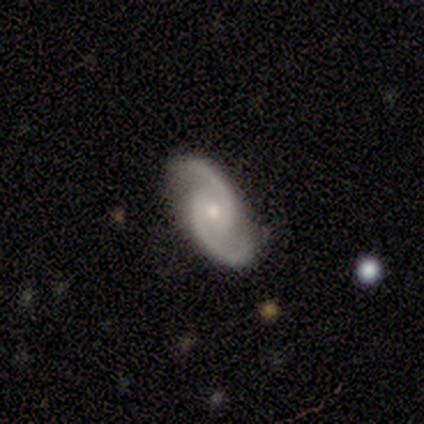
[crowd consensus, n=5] A featured or disk galaxy (100%) with no bar (75%), 2 (100%) medium (75%) spiral arms (100%) and a moderate central bulge (50%, tied with small). Merging: none (100%).